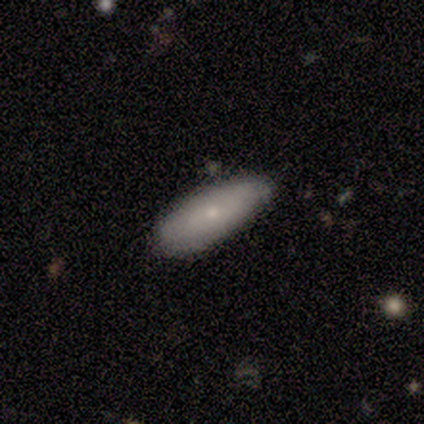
smooth_or_featured: featured or disk (p=0.60) [alt: smooth p=0.40]
disk_edge_on: yes (p=0.67) [alt: no p=0.33]
edge_on_bulge: rounded (p=1.00)
merging: none (p=0.60) [alt: minor disturbance p=0.40]